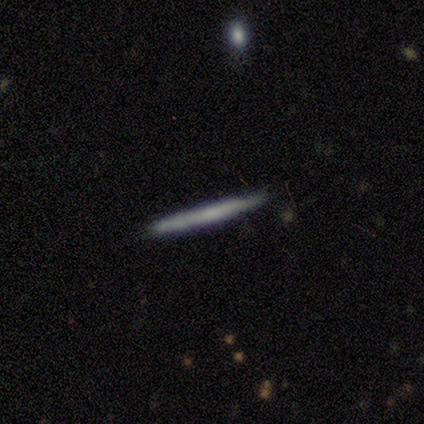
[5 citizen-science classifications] This appears to be a smooth galaxy with no disk features (100%) that is cigar-shaped (100%). Merging: none (100%).